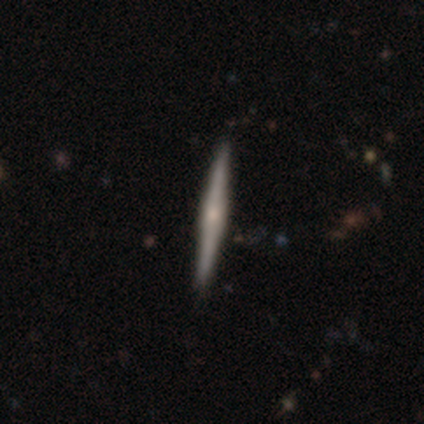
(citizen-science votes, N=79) smooth-or-featured: featured or disk: 72% | smooth: 25% | star or artifact: 3%
  disk-edge-on: yes: 95% | no: 5%
    edge-on-bulge: rounded: 48% | boxy: 33% | none: 19%
  merging: none: 47% | minor disturbance: 3% | merger: 1% | major disturbance: 0%